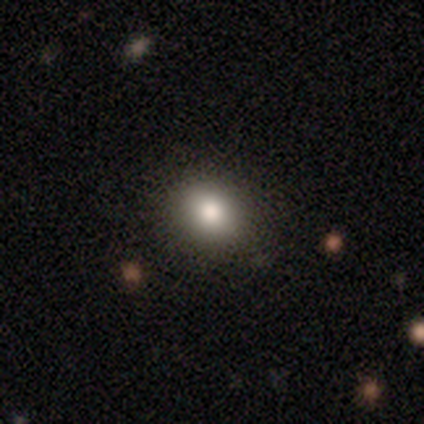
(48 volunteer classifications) Smooth or featured: smooth — 85% (star or artifact — 15%)
How rounded: round — 71% (in between — 27%)
Merging: none — 90% (major disturbance — 7%)